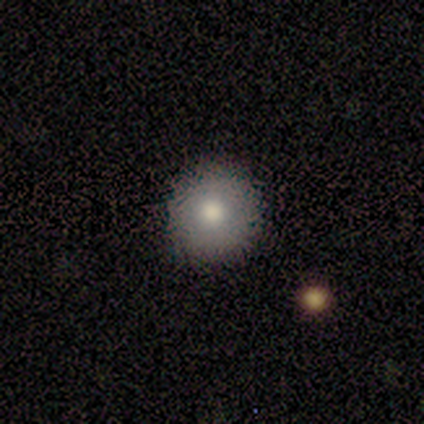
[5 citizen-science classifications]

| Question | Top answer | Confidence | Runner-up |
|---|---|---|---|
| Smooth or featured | smooth | 40% | tied: featured or disk (40%) |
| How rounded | round | 100% | — |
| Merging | none | 100% | — |